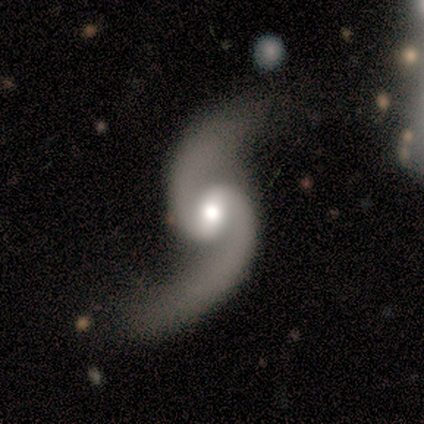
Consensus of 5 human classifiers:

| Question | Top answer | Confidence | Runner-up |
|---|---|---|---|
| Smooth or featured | featured or disk | 100% | — |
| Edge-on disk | no | 100% | — |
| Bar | weak | 60% | no (40%) |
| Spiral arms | yes | 100% | — |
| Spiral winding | loose | 80% | medium (20%) |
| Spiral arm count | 2 | 100% | — |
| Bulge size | moderate | 100% | — |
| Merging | none | 60% | major disturbance (20%) |